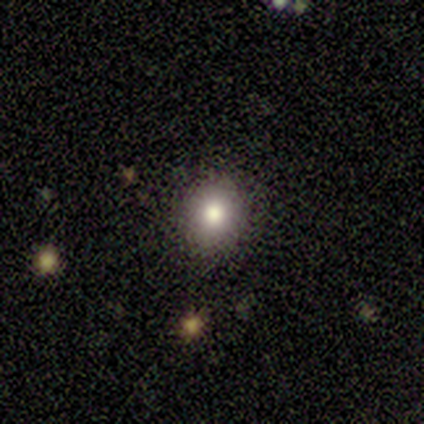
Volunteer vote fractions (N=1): Morphology: type=smooth (100%); roundness=round (100%); merging=none (100%).